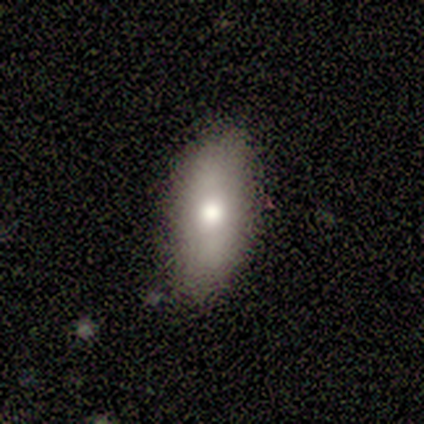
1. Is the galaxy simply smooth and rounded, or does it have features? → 80% smooth, 20% featured or disk, 0% star or artifact.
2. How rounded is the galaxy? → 50% in between (tied), 50% cigar-shaped (tied), 0% round.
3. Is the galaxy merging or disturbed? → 60% none, 40% minor disturbance, 0% major disturbance, 0% merger.